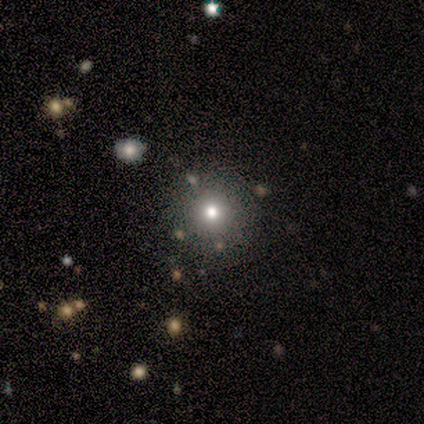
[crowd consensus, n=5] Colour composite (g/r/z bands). It shows a smooth galaxy with no disk features (60%) that is round (100%). Merging: none (100%).